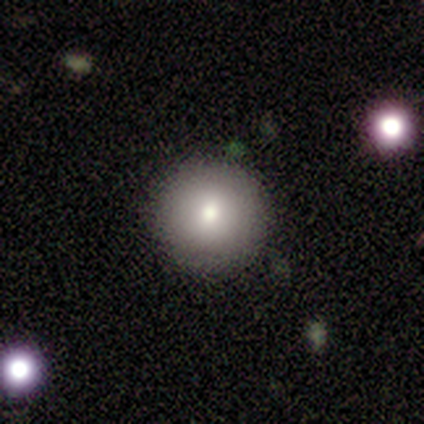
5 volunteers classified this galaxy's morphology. Smooth or featured?
  - smooth: 80% *
  - featured or disk: 20%
  - star or artifact: 0%
How rounded?
  - round: 100% *
  - in between: 0%
  - cigar-shaped: 0%
Merging?
  - none: 80% *
  - minor disturbance: 20%
  - major disturbance: 0%
  - merger: 0%